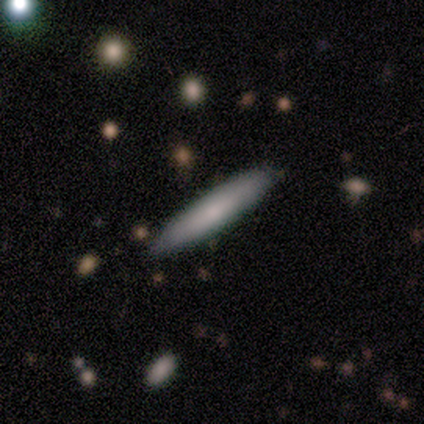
smooth 80%, star or artifact 20%, featured or disk 0%. Down the decision tree: how rounded — cigar-shaped (100%); merging — none (100%).